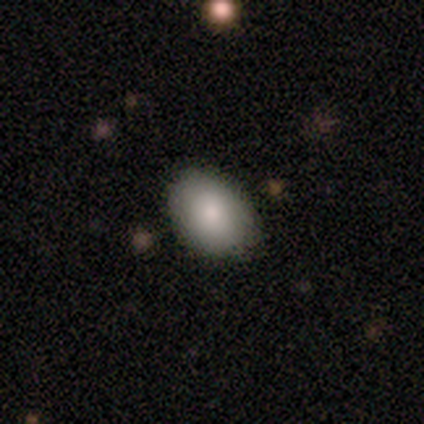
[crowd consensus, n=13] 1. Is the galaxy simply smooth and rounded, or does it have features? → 100% smooth, 0% featured or disk, 0% star or artifact.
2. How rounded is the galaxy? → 92% in between, 8% round, 0% cigar-shaped.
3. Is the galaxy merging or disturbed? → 85% none, 8% minor disturbance, 8% merger, 0% major disturbance.